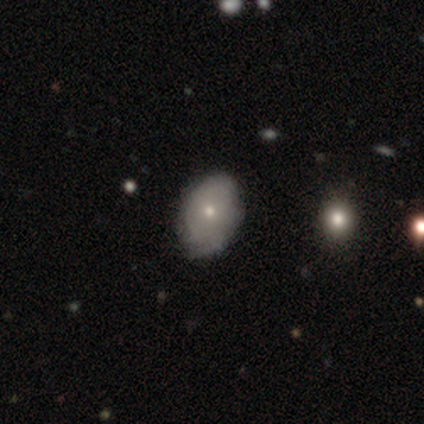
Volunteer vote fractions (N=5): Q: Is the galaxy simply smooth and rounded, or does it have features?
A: smooth — 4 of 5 (80%).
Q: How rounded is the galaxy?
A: in between — 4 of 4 (100%).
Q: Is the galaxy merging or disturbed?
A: none — 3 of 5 (60%).